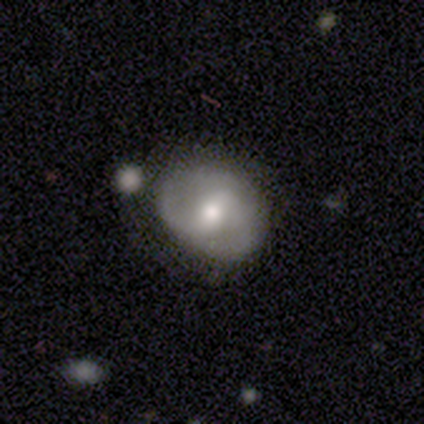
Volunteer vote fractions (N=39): This is likely a featured or disk galaxy (64%). It is clearly not viewed edge-on (96%). Bar: possibly weak (58%). Spiral arm pattern: likely yes (71%). Spiral arm count: clearly 2 (94%). Spiral winding: possibly medium (59%). Central bulge: likely moderate (62%). Merging: marginally none (31%).